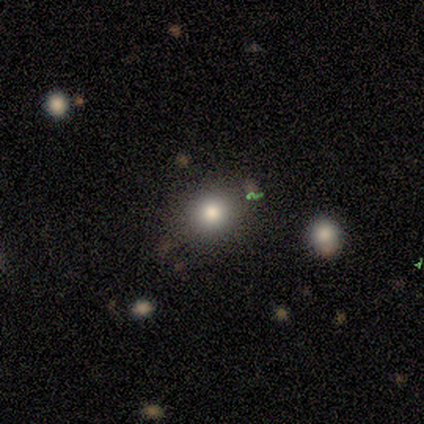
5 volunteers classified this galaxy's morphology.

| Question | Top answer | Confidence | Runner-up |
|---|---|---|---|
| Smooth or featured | smooth | 100% | — |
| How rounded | round | 100% | — |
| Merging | none | 100% | — |